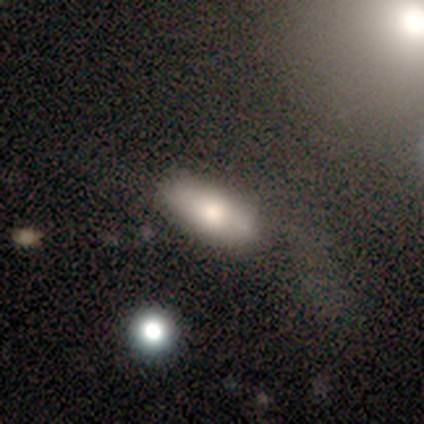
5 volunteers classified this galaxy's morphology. Smooth or featured?
  - smooth: 80% *
  - featured or disk: 20%
  - star or artifact: 0%
How rounded?
  - in between: 100% *
  - round: 0%
  - cigar-shaped: 0%
Merging?
  - none: 80% *
  - major disturbance: 20%
  - minor disturbance: 0%
  - merger: 0%